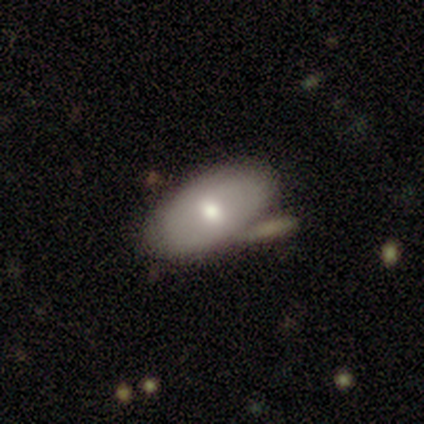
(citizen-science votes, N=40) smooth_or_featured: smooth (p=0.75) [alt: featured or disk p=0.12]
how_rounded: in between (p=0.93) [alt: round p=0.07]
merging: none (p=0.63) [alt: merger p=0.20]